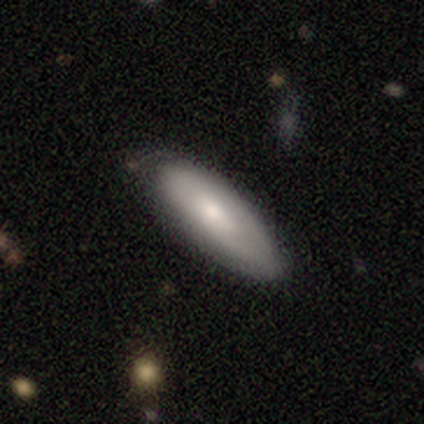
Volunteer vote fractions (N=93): Morphology: type=smooth (68%); roundness=in between (67%); merging=none (67%).